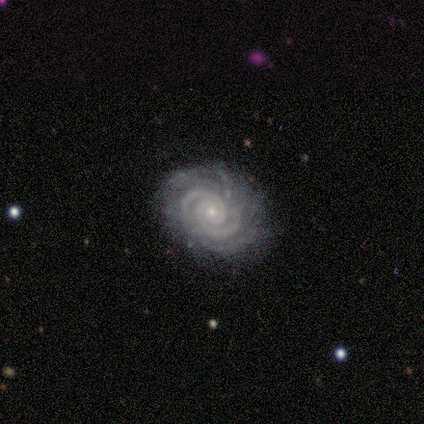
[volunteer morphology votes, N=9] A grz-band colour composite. It shows a featured or disk galaxy (100%) with no bar (89%), 2 (33%) tight (78%) spiral arms (100%) and a small central bulge (56%). Merging: none (89%).